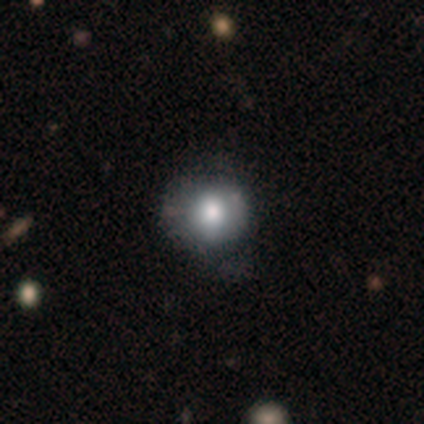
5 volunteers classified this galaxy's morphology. Overall: smooth (60%; featured or disk 20%). How rounded: round (100%). Merging: none (50%, tied with minor disturbance).